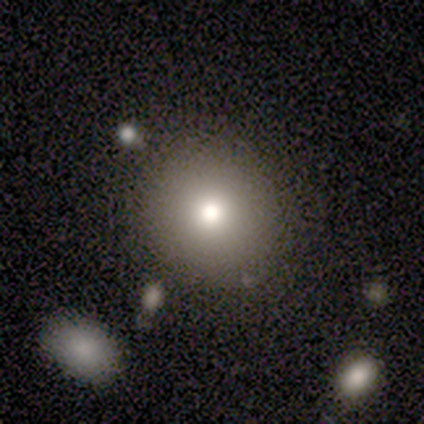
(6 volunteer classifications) smooth_or_featured: smooth (p=0.83) [alt: featured or disk p=0.17]
how_rounded: round (p=1.00)
merging: none (p=1.00)